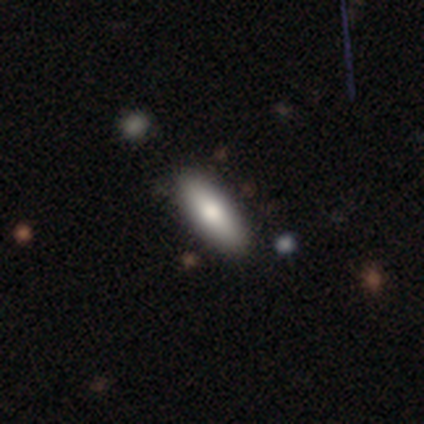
smooth-or-featured: smooth: 78% | featured or disk: 18% | star or artifact: 5%
  how-rounded: in between: 77% | cigar-shaped: 23% | round: 0%
  merging: none: 87% | minor disturbance: 11% | major disturbance: 3% | merger: 0%